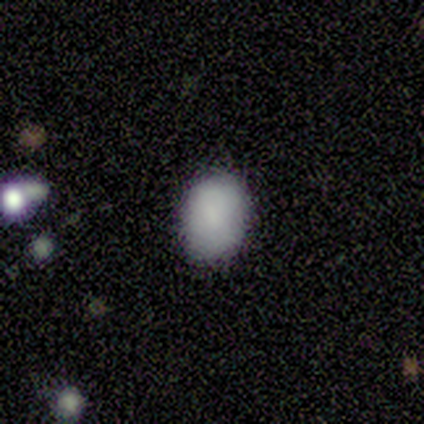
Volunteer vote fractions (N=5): This is clearly a smooth galaxy (100%). How rounded: likely in between (60%). Merging: clearly none (100%).